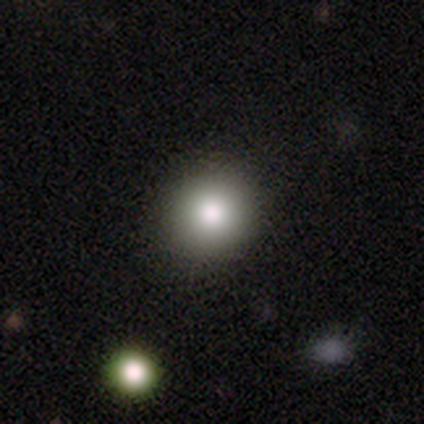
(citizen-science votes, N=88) Volunteers were most divided on "smooth or featured": smooth: 80%, star or artifact: 17%, featured or disk: 3%. More confident: merging — none (92%); how rounded — round (90%).